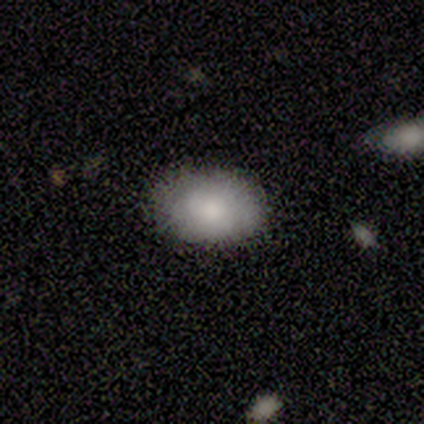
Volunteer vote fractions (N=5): Smooth or featured? smooth (80%)
How rounded? in between (100%)
Merging? none (100%)